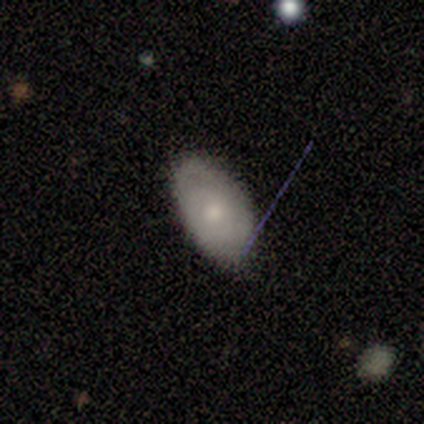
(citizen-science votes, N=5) Morphology: type=smooth (60%); roundness=in between (100%); merging=none (100%).